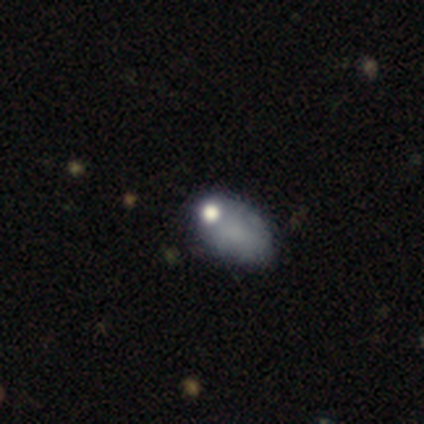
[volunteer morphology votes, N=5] type=smooth (80%); roundness=in between (75%); merging=none (75%).